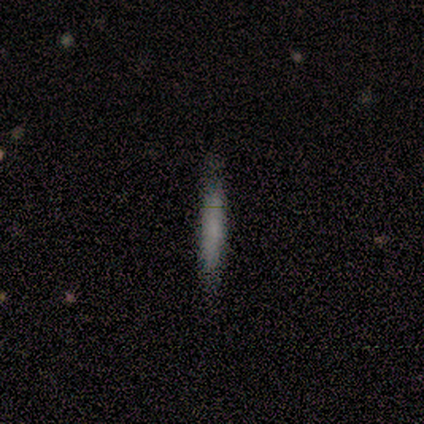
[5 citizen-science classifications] Overall: smooth (100%). How rounded: cigar-shaped (100%). Merging: none (100%).